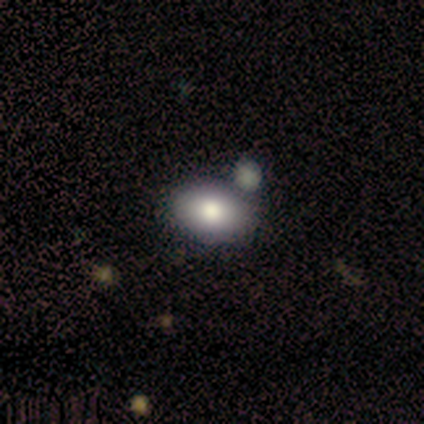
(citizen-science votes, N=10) smooth_or_featured: smooth (p=0.60) [alt: featured or disk p=0.40]
how_rounded: in between (p=0.83) [alt: round p=0.17]
merging: none (p=0.70) [alt: minor disturbance p=0.20]